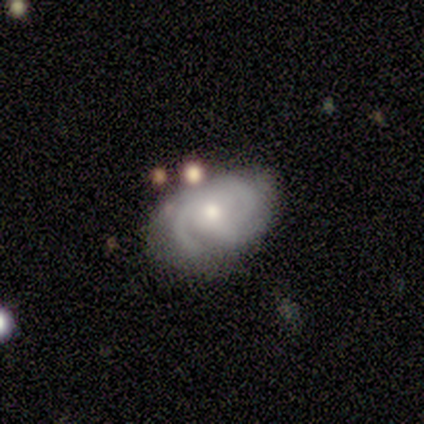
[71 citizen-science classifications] A featured or disk galaxy (80%) with no bar (86%), 3 (48%) tight (61%) spiral arms (96%) and a moderate central bulge (61%). Merging: none (48%).